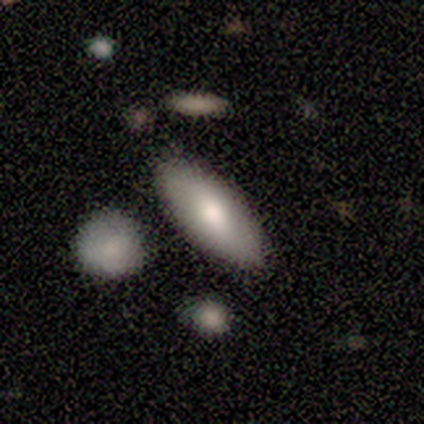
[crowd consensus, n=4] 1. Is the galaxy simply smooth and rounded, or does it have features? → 100% smooth, 0% featured or disk, 0% star or artifact.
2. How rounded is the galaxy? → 75% in between, 25% cigar-shaped, 0% round.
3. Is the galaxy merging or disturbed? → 100% none, 0% minor disturbance, 0% major disturbance, 0% merger.